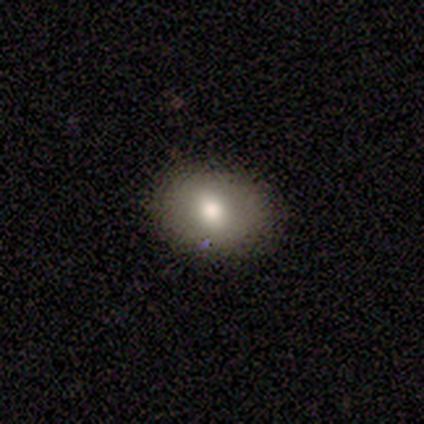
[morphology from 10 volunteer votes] smooth-or-featured: smooth: 70% | star or artifact: 20% | featured or disk: 10%
  how-rounded: in between: 57% | round: 43% | cigar-shaped: 0%
  merging: none: 88% | major disturbance: 12% | minor disturbance: 0% | merger: 0%